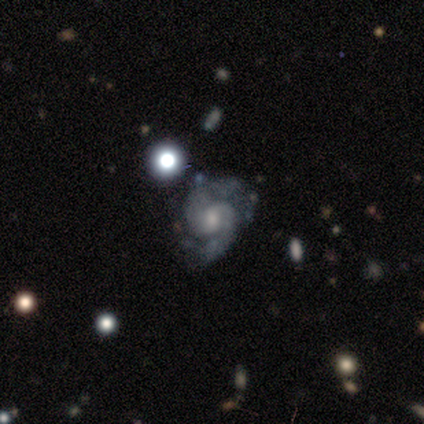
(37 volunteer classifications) This appears to be a featured or disk galaxy (95%) with a weak bar (51%), 2 (85%) medium (71%) spiral arms (97%) and a moderate central bulge (46%). Merging: none (64%).